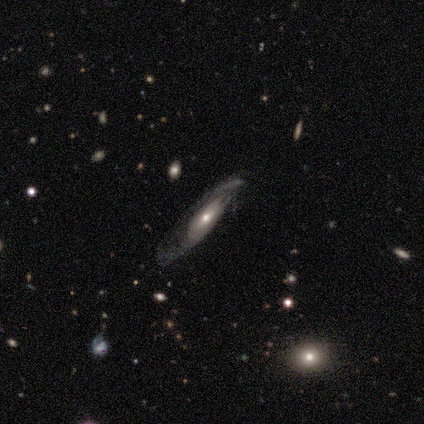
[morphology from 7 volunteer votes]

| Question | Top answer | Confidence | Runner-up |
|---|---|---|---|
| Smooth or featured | featured or disk | 71% | smooth (29%) |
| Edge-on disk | yes | 60% | no (40%) |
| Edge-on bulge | rounded | 100% | — |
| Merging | none | 57% | major disturbance (43%) |